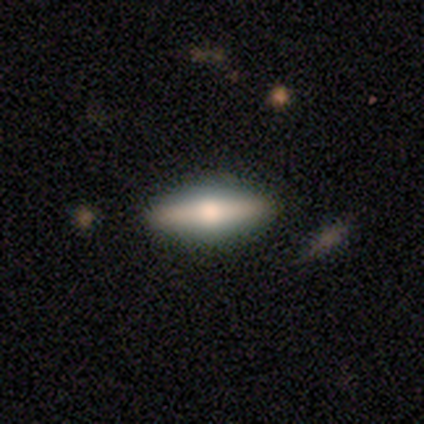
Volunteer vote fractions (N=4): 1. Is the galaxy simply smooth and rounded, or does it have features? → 75% smooth, 25% featured or disk, 0% star or artifact.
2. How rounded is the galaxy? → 67% in between, 33% cigar-shaped, 0% round.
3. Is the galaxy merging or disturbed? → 100% none, 0% minor disturbance, 0% major disturbance, 0% merger.